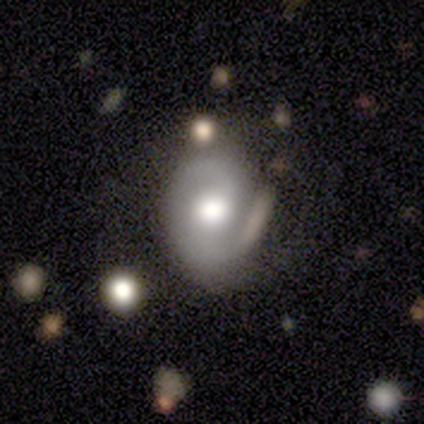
smooth_or_featured: featured or disk (p=0.81) [alt: smooth p=0.19]
disk_edge_on: no (p=0.97) [alt: yes p=0.03]
bar: no (p=0.59) [alt: weak p=0.31]
has_spiral_arms: yes (p=0.86) [alt: no p=0.14]
spiral_winding: tight (p=0.36) [alt: medium p=0.32]
spiral_arm_count: 2 (p=0.56) [alt: 1 p=0.36]
bulge_size: moderate (p=0.59) [alt: large p=0.24]
merging: none (p=0.70) [alt: minor disturbance p=0.14]